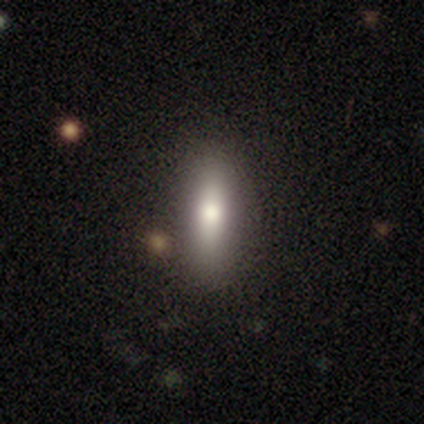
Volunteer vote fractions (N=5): A smooth galaxy with no disk features (80%) that is in between round and cigar-shaped (50%, tied with cigar-shaped).

Vote fractions:
- Smooth or featured? smooth: 80% / star or artifact: 20% / featured or disk: 0%
- How rounded? in between: 50% (tied) / cigar-shaped: 50% (tied) / round: 0%
- Merging? none: 100% / minor disturbance: 0% / major disturbance: 0% / merger: 0%